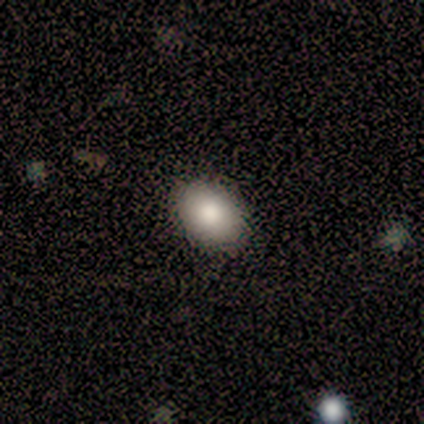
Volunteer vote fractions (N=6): smooth_or_featured: smooth (p=0.67) [alt: featured or disk p=0.17]
how_rounded: in between (p=1.00)
merging: none (p=1.00)